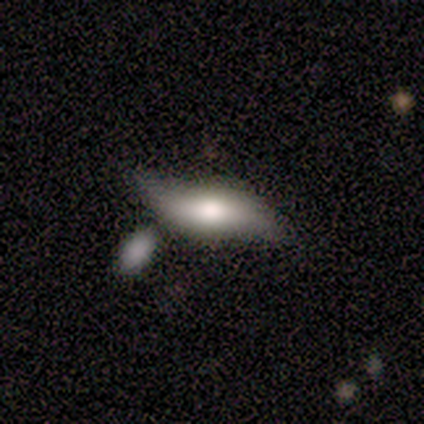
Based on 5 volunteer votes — smooth_or_featured: smooth (p=0.60) [alt: featured or disk p=0.40]
how_rounded: in between (p=0.67) [alt: cigar-shaped p=0.33]
merging: none (p=0.60) [alt: minor disturbance p=0.40]